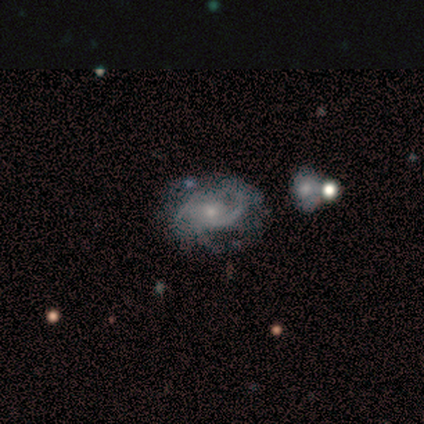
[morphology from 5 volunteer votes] smooth_or_featured: featured or disk (p=0.80) [alt: smooth p=0.20]
disk_edge_on: no (p=1.00)
bar: no (p=0.50) [alt: strong p=0.25]
has_spiral_arms: yes (p=1.00)
spiral_winding: tight (p=0.50) [alt: medium p=0.25]
spiral_arm_count: 1 (p=0.25) [tied with: 2 p=0.25, 3 p=0.25, can't tell p=0.25]
bulge_size: moderate (p=0.50) [tied with: small p=0.50]
merging: none (p=0.80) [alt: minor disturbance p=0.20]